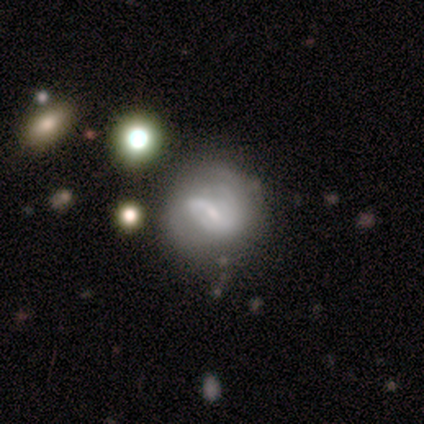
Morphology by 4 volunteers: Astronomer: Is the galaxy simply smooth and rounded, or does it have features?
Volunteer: featured or disk — 50%.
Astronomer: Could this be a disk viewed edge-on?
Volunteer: no — 100%.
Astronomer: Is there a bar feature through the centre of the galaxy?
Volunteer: strong — 50%, tied with no at 50%.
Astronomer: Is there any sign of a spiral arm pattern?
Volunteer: yes — 50%, tied with no at 50%.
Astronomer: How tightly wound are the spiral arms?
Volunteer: tight — 100%.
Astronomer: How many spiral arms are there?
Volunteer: can't tell — 100%.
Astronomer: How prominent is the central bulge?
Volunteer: small — 50%, tied with none at 50%.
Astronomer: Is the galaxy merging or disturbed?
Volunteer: none — 67%.